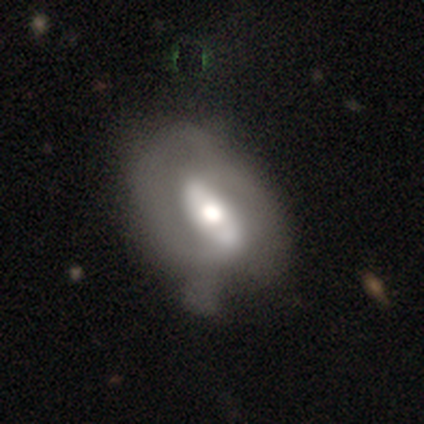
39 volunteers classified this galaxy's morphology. A featured or disk galaxy (79%) with a strong bar (46%), 2 (75%) medium (56%) spiral arms (57%) and a moderate central bulge (54%). Merging: none (24%).